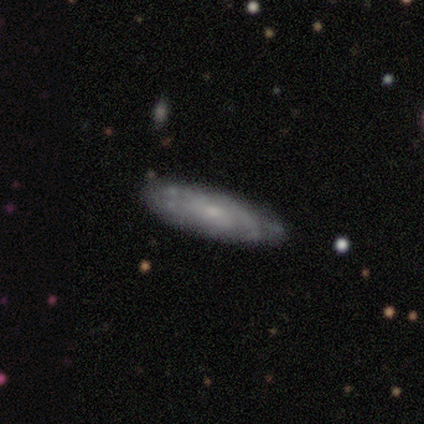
This is possibly a featured or disk galaxy (50%). It is clearly not viewed edge-on (100%). Bar: possibly weak (50%, tied with no). Spiral arm pattern: clearly yes (100%). Spiral arm count: clearly 2 (100%). Spiral winding: possibly medium (50%, tied with loose). Central bulge: possibly moderate (50%, tied with small). Merging: likely none (67%).